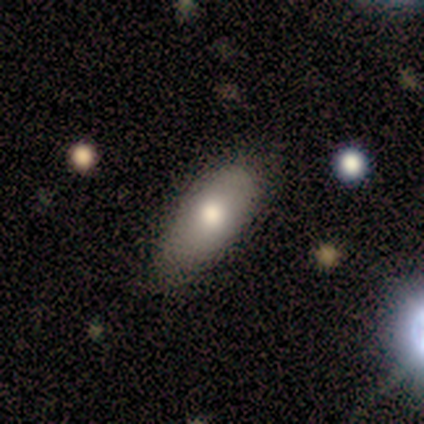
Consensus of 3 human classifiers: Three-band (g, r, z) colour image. It shows a smooth galaxy with no disk features (100%) that is in between round and cigar-shaped (100%). Merging: none (67%).